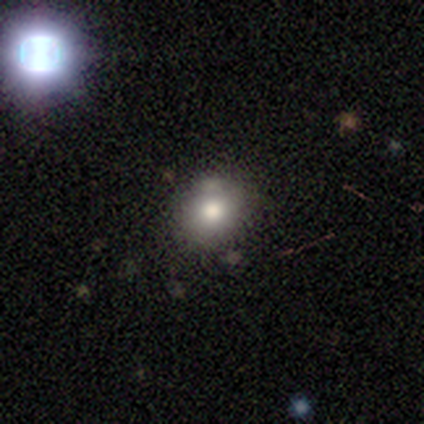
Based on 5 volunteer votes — This is likely a smooth galaxy (60%). How rounded: clearly round (100%). Merging: clearly none (100%).